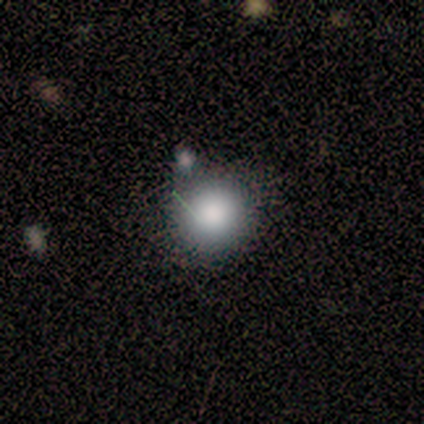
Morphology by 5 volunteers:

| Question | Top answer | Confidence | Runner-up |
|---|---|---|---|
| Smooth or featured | smooth | 80% | star or artifact (20%) |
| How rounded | round | 75% | in between (25%) |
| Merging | minor disturbance | 50% | none (25%) |